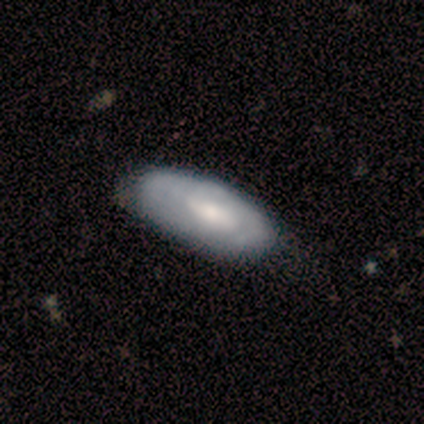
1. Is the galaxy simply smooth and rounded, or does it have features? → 51% smooth, 43% featured or disk, 5% star or artifact.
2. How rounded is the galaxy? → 89% in between, 11% cigar-shaped, 0% round.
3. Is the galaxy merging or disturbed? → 43% none, 20% minor disturbance, 3% major disturbance, 3% merger.